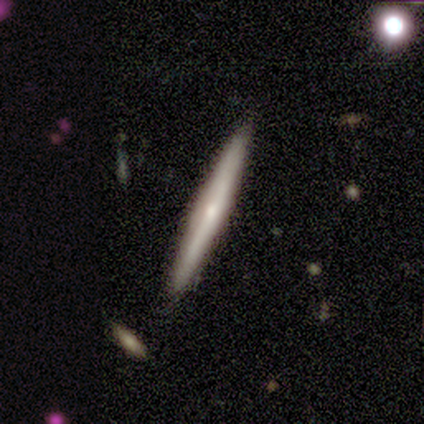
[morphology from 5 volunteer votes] Q: Smooth or featured?
A: smooth (60%); runner-up: featured or disk (40%)
Q: How rounded?
A: cigar-shaped (100%)
Q: Merging?
A: none (60%); runner-up: minor disturbance (20%)